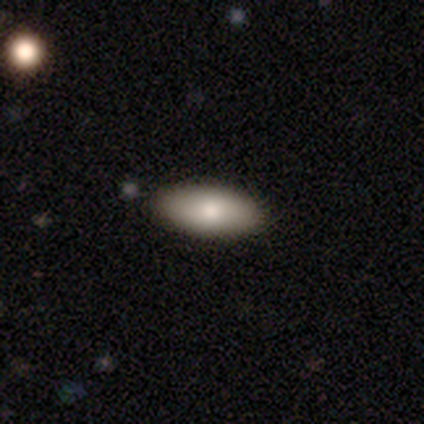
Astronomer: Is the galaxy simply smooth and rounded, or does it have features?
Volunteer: smooth — 74%.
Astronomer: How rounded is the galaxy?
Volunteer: in between — 93%.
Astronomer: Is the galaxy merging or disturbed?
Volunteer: none — 72%.